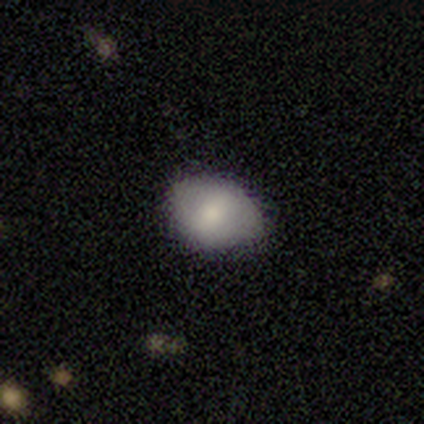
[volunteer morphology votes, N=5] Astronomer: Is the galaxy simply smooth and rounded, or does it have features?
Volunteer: smooth — 100%.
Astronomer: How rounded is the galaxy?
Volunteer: in between — 60% (runner-up: round, 40%).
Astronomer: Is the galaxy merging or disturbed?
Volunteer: none — 80%.